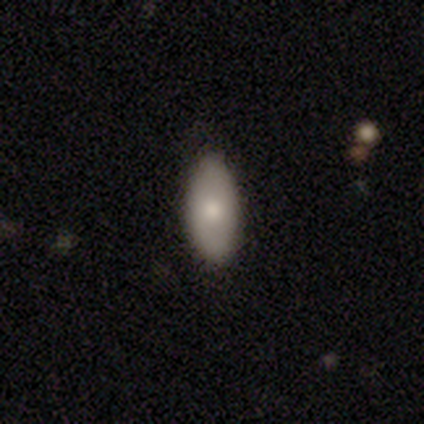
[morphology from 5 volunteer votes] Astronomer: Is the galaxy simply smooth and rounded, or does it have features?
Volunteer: smooth — 60% (runner-up: featured or disk, 40%).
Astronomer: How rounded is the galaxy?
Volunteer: in between — 100%.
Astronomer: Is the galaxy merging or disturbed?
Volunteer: none — 100%.